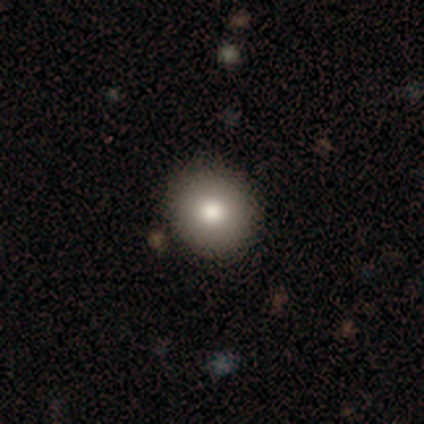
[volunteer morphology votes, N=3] Smooth or featured? 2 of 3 (67%) said smooth. How rounded? 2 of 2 (100%) said round. Merging? 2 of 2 (100%) said none.